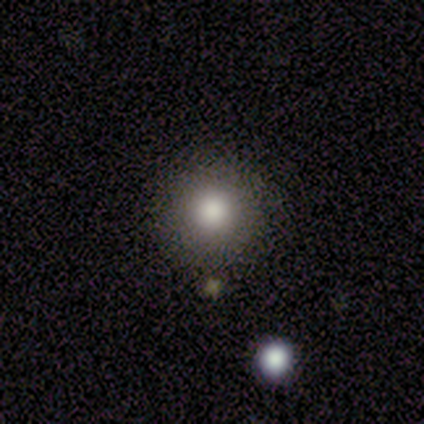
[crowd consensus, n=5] Q: Smooth or featured?
A: smooth (80%); runner-up: star or artifact (20%)
Q: How rounded?
A: round (100%)
Q: Merging?
A: none (100%)